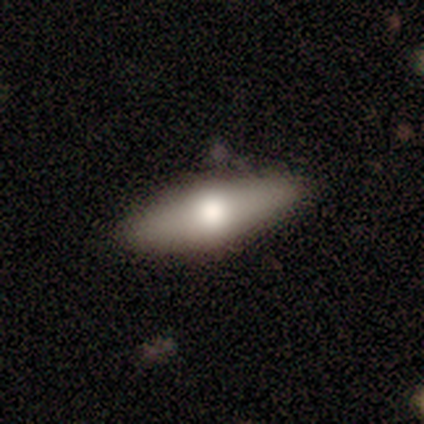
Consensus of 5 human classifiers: A smooth galaxy with no disk features (60%) that is in between round and cigar-shaped (67%). Merging: none (100%).